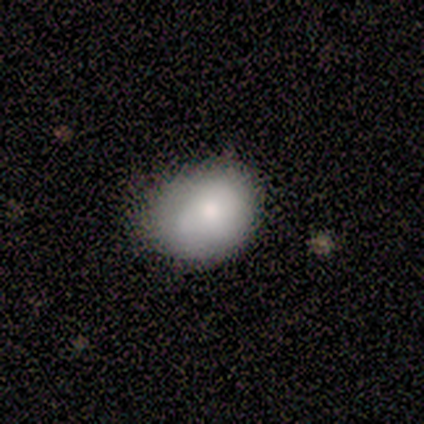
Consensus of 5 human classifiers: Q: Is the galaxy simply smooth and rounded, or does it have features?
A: smooth — 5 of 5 (100%).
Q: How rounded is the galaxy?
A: in between — 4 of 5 (80%).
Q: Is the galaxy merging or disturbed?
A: none — 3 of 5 (60%).